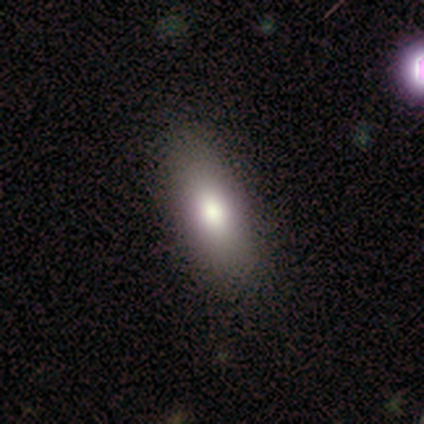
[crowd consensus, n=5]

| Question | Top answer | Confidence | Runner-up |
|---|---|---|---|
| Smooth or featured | smooth | 100% | — |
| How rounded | in between | 100% | — |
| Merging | none | 80% | minor disturbance (20%) |